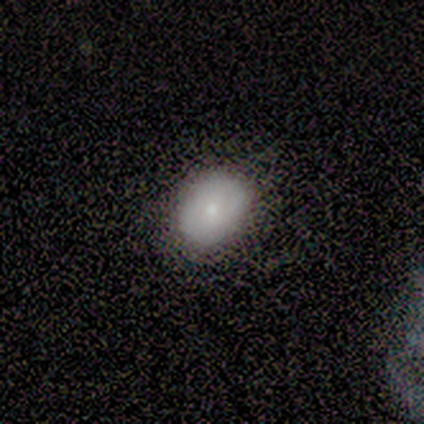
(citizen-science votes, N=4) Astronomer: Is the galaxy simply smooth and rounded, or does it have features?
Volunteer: smooth — 100%.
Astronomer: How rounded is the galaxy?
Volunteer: in between — 100%.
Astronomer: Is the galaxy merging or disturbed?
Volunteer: none — 75%.